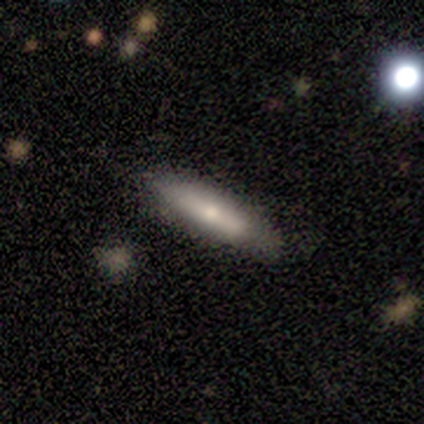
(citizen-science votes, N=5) smooth 60%, featured or disk 40%, star or artifact 0%. Down the decision tree: how rounded — cigar-shaped (100%); merging — none (80%).